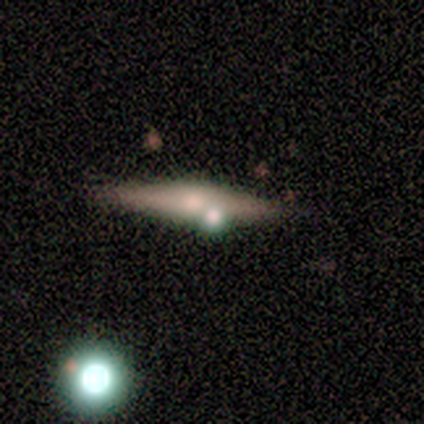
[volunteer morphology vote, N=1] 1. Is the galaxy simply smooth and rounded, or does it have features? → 100% smooth, 0% featured or disk, 0% star or artifact.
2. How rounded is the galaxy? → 100% cigar-shaped, 0% round, 0% in between.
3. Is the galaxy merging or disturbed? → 100% none, 0% minor disturbance, 0% major disturbance, 0% merger.